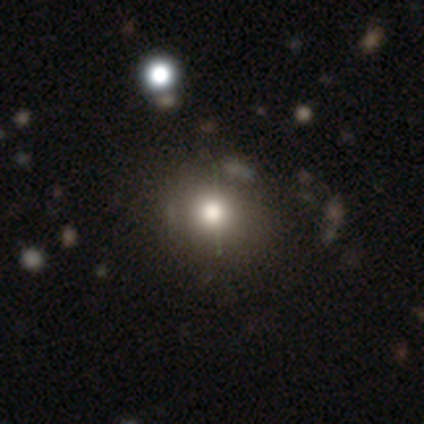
Smooth or featured? smooth (74%)
How rounded? round (75%)
Merging? none (58%)